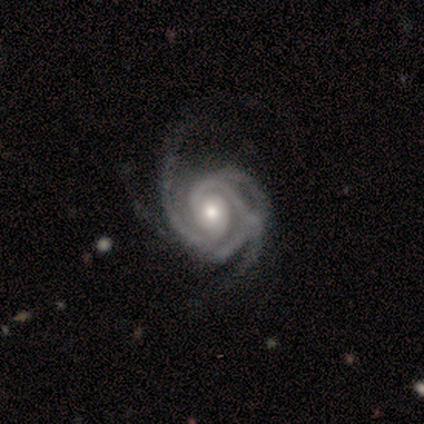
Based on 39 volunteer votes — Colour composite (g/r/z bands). It shows a featured or disk galaxy (97%) with no bar (74%), 3 (32%) tight (58%) spiral arms (100%) and a moderate central bulge (71%). Merging: minor disturbance (21%).